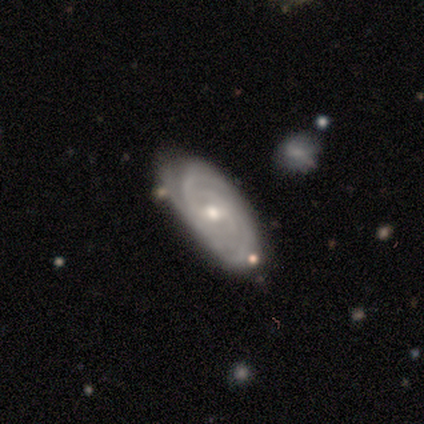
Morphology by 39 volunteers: Volunteers were most divided on "spiral arm count": 3: 36%, can't tell: 25%, 2: 18%, 4: 11%, more than 4: 11%, 1: 0%. More confident: spiral arms — yes (97%); edge-on disk — no (94%); smooth or featured — featured or disk (79%); spiral winding — tight (75%); merging — none (69%); bar — no (59%); bulge size — small (55%).